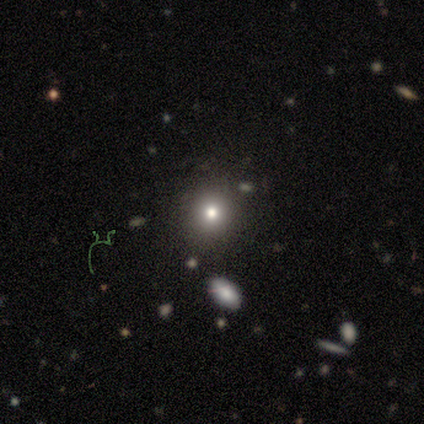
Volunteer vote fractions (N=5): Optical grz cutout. It shows a smooth galaxy with no disk features (80%) that is round (100%). Merging: none (100%).